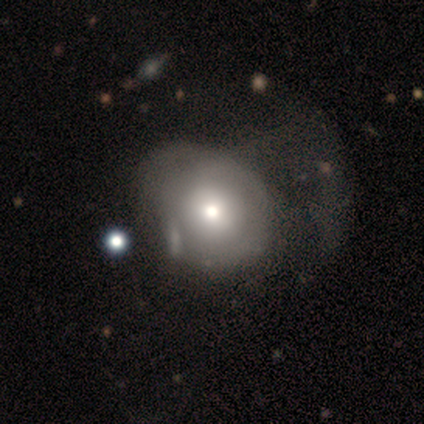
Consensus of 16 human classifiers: Smooth or featured? smooth (75%)
How rounded? round (67%)
Merging? major disturbance (38%)